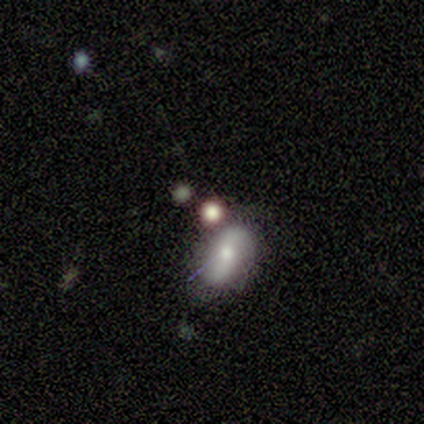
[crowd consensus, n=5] Smooth or featured? 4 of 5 (80%) said smooth. How rounded? 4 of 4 (100%) said in between. Merging? 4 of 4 (100%) said none.